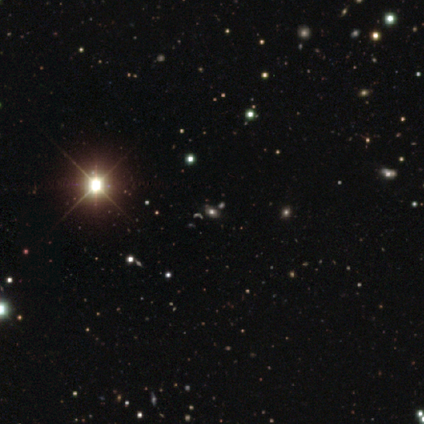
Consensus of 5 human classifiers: Smooth or featured? 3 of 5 (60%) said star or artifact.